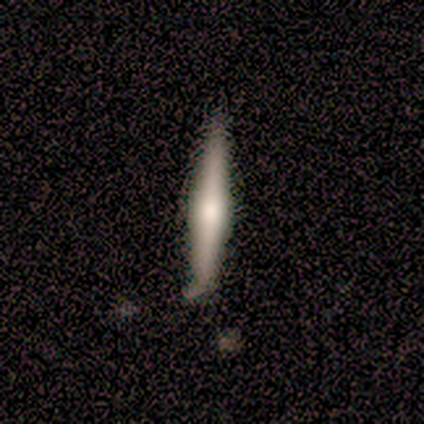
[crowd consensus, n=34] A smooth galaxy with no disk features (47%, tied with featured or disk) that is cigar-shaped (94%).

Vote fractions:
- Smooth or featured? smooth: 47% (tied) / featured or disk: 47% (tied) / star or artifact: 6%
- How rounded? cigar-shaped: 94% / round: 6% / in between: 0%
- Merging? none: 72% / minor disturbance: 19% / merger: 9% / major disturbance: 0%